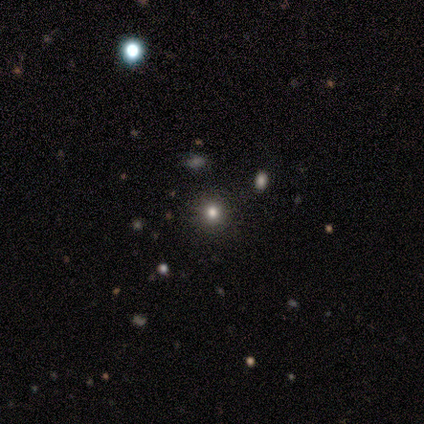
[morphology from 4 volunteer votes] This is clearly a smooth galaxy (100%). How rounded: clearly round (100%). Merging: likely none (75%).